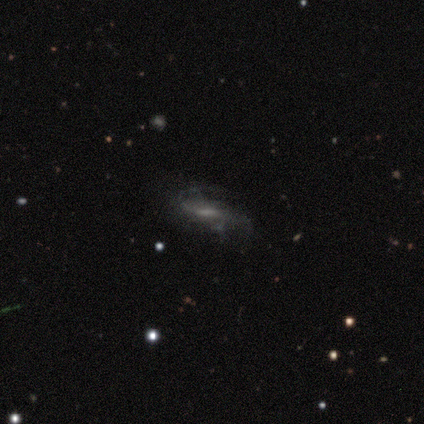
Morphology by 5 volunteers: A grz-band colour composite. It shows a featured or disk galaxy (60%) with a weak bar (100%), 2 (50%, tied with can't tell) medium (50%, tied with loose) spiral arms (100%) and a moderate central bulge (100%). Merging: none (40%, tied with minor disturbance).